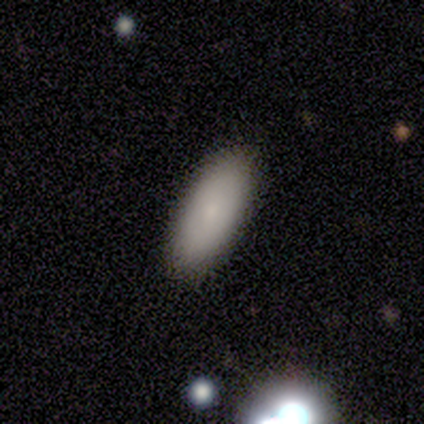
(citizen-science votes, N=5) smooth 60%, featured or disk 40%, star or artifact 0%. Down the decision tree: how rounded — in between (100%); merging — none (80%).